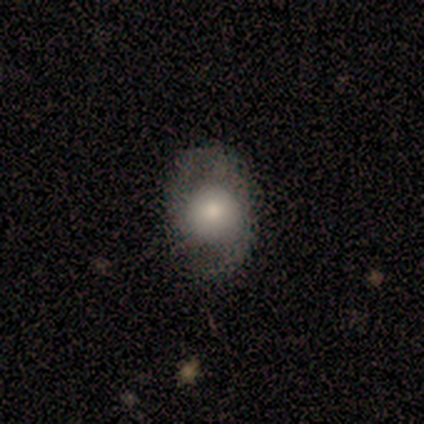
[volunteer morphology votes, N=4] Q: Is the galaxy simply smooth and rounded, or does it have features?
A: smooth — 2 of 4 (50%, tied with featured or disk).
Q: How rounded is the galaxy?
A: round — 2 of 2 (100%).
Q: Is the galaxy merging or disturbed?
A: none — 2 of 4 (50%).